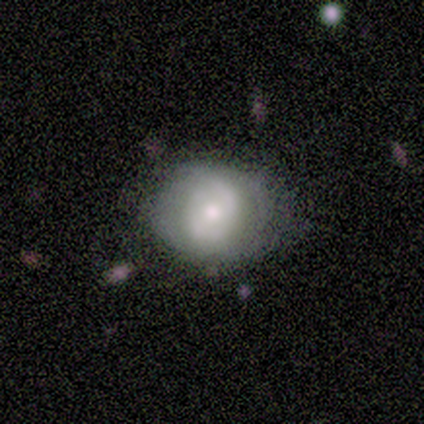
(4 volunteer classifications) Smooth or featured? 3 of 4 (75%) said smooth. How rounded? 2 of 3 (67%) said round. Merging? 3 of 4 (75%) said none.